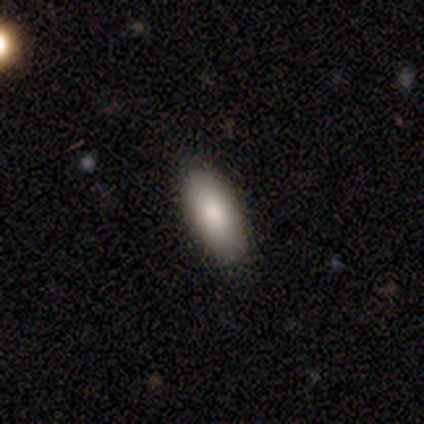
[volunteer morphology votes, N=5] smooth-or-featured: smooth: 80% | featured or disk: 20% | star or artifact: 0%
  how-rounded: in between: 100% | round: 0% | cigar-shaped: 0%
  merging: none: 100% | minor disturbance: 0% | major disturbance: 0% | merger: 0%